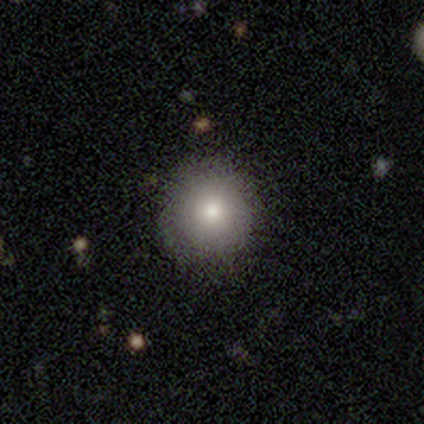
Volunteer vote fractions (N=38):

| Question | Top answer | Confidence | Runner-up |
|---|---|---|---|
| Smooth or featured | smooth | 84% | star or artifact (13%) |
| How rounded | round | 97% | in between (3%) |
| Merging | none | 82% | minor disturbance (12%) |